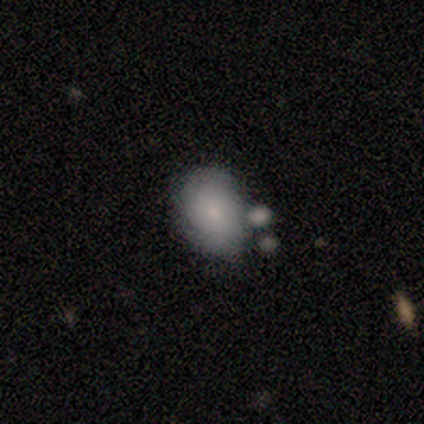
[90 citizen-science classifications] This appears to be a smooth galaxy with no disk features (68%) that is in between round and cigar-shaped (69%). Merging: none (51%).